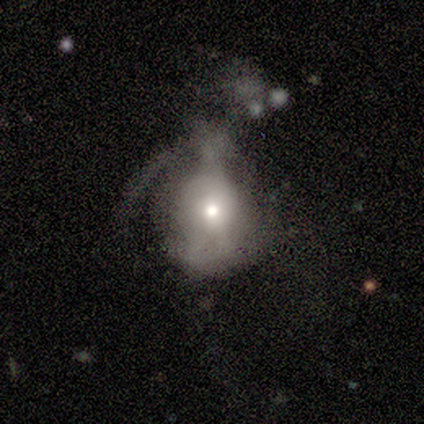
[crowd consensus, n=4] Smooth or featured? featured or disk (75%)
Edge-on disk? no (100%)
Bar? no (67%)
Spiral arms? yes (67%)
Spiral winding? tight (50%, tied with loose)
Spiral arm count? 1 (50%, tied with 2)
Bulge size? small (67%)
Merging? minor disturbance (50%)